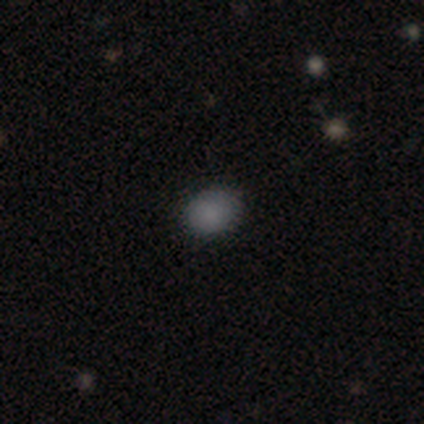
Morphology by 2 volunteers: Smooth or featured? 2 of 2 (100%) said smooth. How rounded? 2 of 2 (100%) said in between. Merging? 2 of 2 (100%) said none.